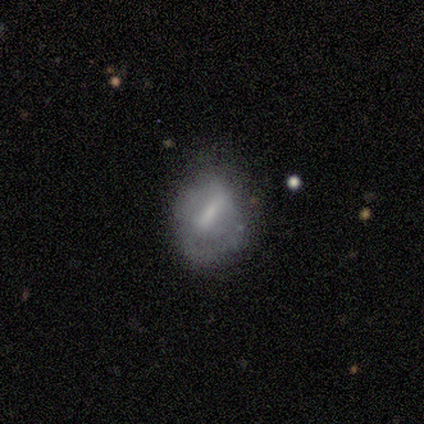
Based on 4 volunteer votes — smooth 50% (tied), featured or disk 50% (tied), star or artifact 0%. Down the decision tree: how rounded — round (100%); merging — none (75%).